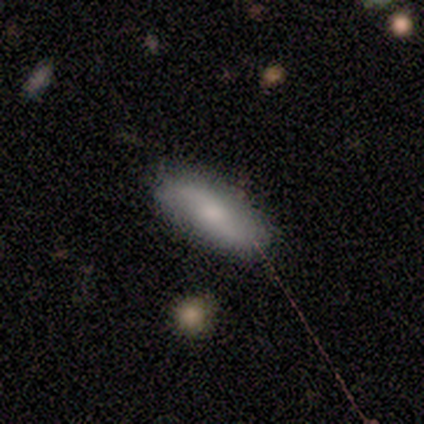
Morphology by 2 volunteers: smooth-or-featured: smooth: 50% (tied) | star or artifact: 50% (tied) | featured or disk: 0%
  how-rounded: in between: 100% | round: 0% | cigar-shaped: 0%
  merging: none: 100% | minor disturbance: 0% | major disturbance: 0% | merger: 0%